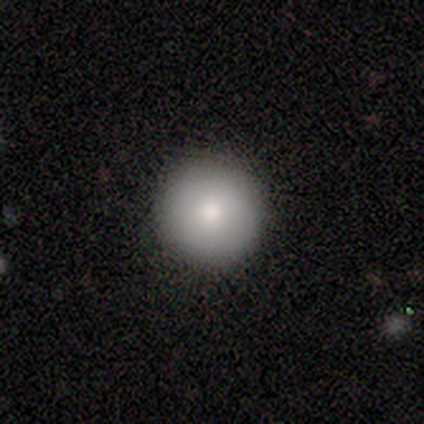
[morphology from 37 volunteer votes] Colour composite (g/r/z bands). It shows a smooth galaxy with no disk features (81%) that is round (97%). Merging: none (97%).